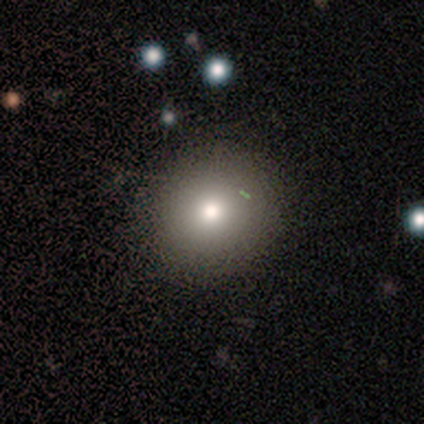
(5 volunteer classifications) smooth_or_featured: smooth (p=0.60) [alt: star or artifact p=0.40]
how_rounded: round (p=0.67) [alt: in between p=0.33]
merging: minor disturbance (p=0.67) [alt: none p=0.33]